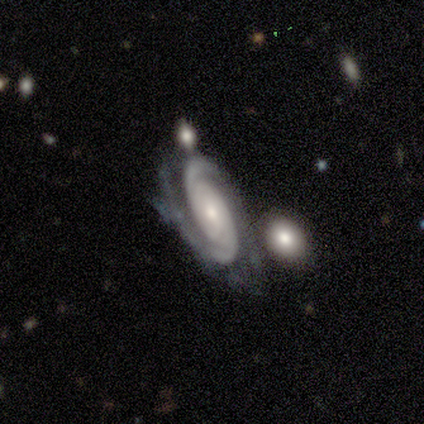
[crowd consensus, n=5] Q: Smooth or featured?
A: featured or disk (100%)
Q: Edge-on disk?
A: no (100%)
Q: Bar?
A: no (100%)
Q: Spiral arms?
A: yes (100%)
Q: Spiral winding?
A: tight (60%); runner-up: medium (20%)
Q: Spiral arm count?
A: 2 (100%)
Q: Bulge size?
A: moderate (60%); runner-up: small (40%)
Q: Merging?
A: none (60%); runner-up: minor disturbance (20%)